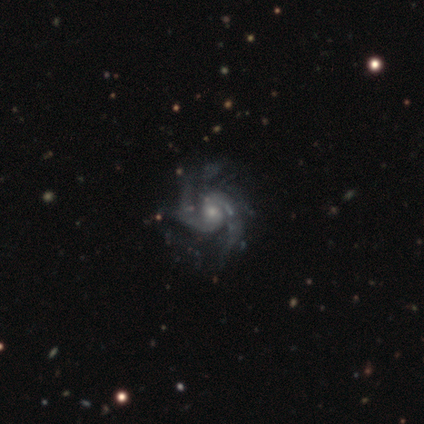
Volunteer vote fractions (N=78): featured or disk 100%, smooth 0%, star or artifact 0%. Down the decision tree: edge-on disk — no (100%); bar — no (62%); spiral arms — yes (99%); spiral arm count — 2 (81%); spiral winding — medium (56%); bulge size — small (53%); merging — none (36%).